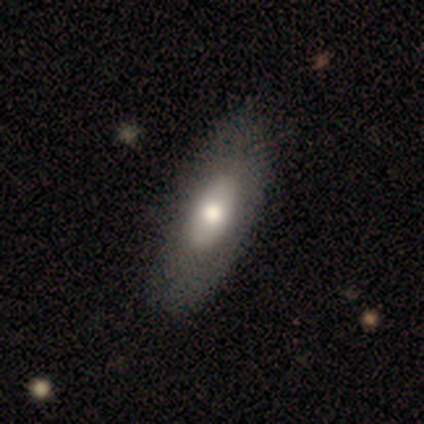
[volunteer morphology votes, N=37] type=smooth (49%); roundness=in between (89%); merging=none (63%).